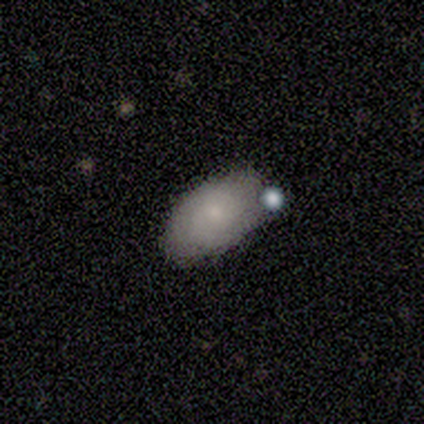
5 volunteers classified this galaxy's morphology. Smooth or featured? smooth (100%)
How rounded? in between (100%)
Merging? none (80%)